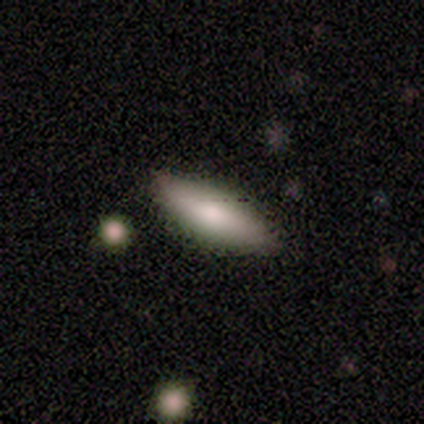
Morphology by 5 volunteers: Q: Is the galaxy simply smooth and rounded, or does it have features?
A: smooth — 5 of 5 (100%).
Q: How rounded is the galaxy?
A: in between — 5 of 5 (100%).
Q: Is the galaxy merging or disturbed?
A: none — 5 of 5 (100%).